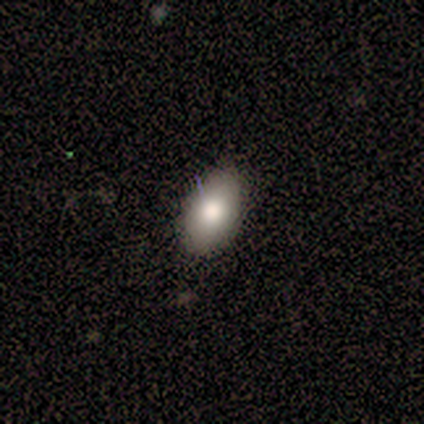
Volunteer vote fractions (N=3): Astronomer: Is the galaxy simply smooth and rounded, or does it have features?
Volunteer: smooth — 100%.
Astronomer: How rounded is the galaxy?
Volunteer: in between — 100%.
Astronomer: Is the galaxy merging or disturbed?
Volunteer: none — 100%.